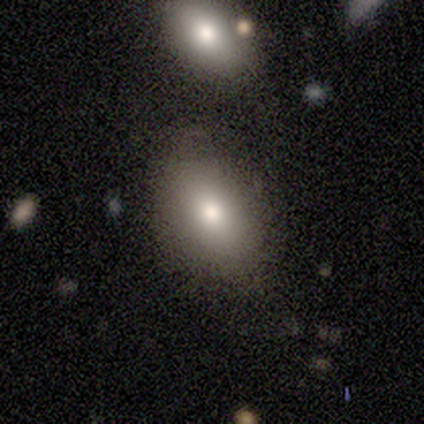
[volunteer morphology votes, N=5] smooth-or-featured: smooth: 40% (tied) | featured or disk: 40% (tied) | star or artifact: 20%
  how-rounded: round: 50% (tied) | in between: 50% (tied) | cigar-shaped: 0%
  merging: none: 75% | minor disturbance: 25% | major disturbance: 0% | merger: 0%